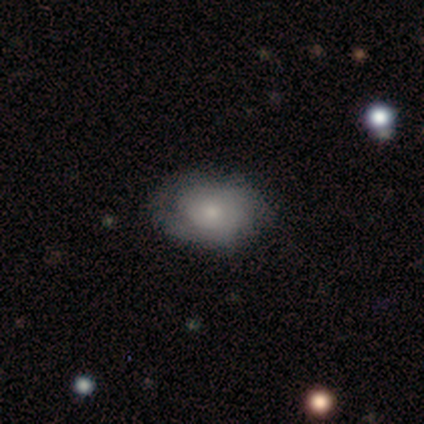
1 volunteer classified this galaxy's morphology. Smooth or featured?
  - featured or disk: 100% *
  - smooth: 0%
  - star or artifact: 0%
Edge-on disk?
  - no: 100% *
  - yes: 0%
Bar?
  - no: 100% *
  - strong: 0%
  - weak: 0%
Spiral arms?
  - no: 100% *
  - yes: 0%
Bulge size?
  - small: 100% *
  - dominant: 0%
  - large: 0%
  - moderate: 0%
  - none: 0%
Merging?
  - none: 100% *
  - minor disturbance: 0%
  - major disturbance: 0%
  - merger: 0%